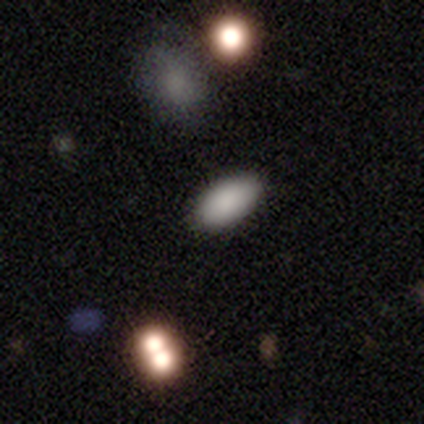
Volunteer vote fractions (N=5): Smooth or featured: smooth — 100%
How rounded: in between — 80% (cigar-shaped — 20%)
Merging: none — 100%